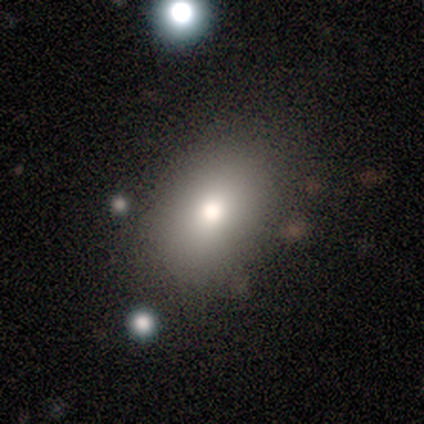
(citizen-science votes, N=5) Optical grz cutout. It shows a smooth galaxy with no disk features (40%, tied with featured or disk) that is in between round and cigar-shaped (100%). Merging: none (50%).